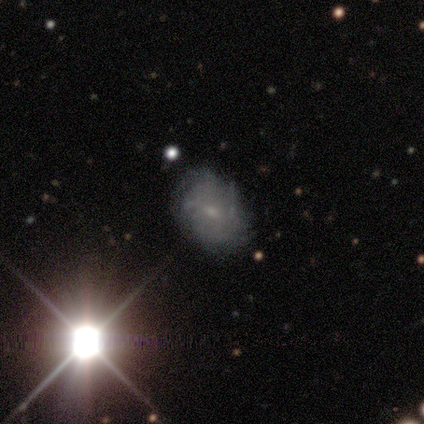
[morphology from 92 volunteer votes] Smooth or featured? 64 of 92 (70%) said featured or disk. Edge-on disk? 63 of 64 (98%) said no. Bar? 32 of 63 (51%) said weak. Spiral arms? 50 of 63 (79%) said yes. Spiral winding? 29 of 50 (58%) said tight. Spiral arm count? 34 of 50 (68%) said can't tell. Bulge size? 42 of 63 (67%) said small. Merging? 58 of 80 (72%) said none.